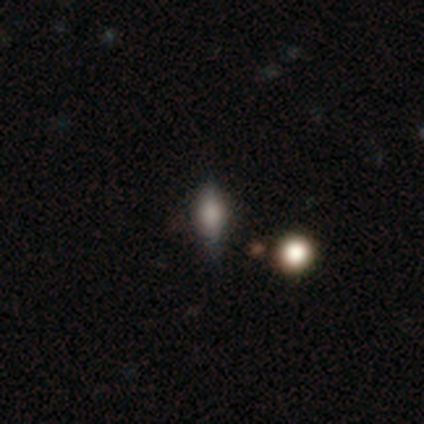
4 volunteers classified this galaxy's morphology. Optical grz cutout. It shows a smooth galaxy with no disk features (75%) that is in between round and cigar-shaped (100%). Merging: none (75%).